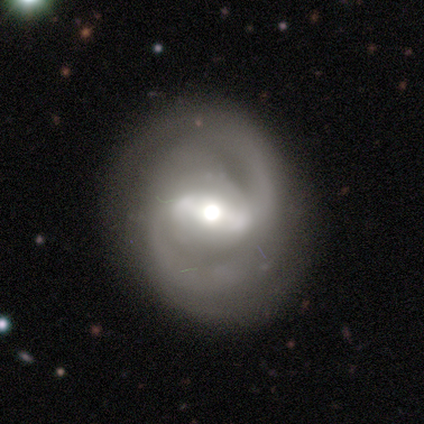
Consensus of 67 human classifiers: Volunteers were most divided on "spiral winding": medium: 50%, tight: 43%, loose: 7%. More confident: edge-on disk — no (100%); spiral arms — yes (92%); smooth or featured — featured or disk (91%); merging — none (83%); spiral arm count — 2 (82%); bar — strong (77%); bulge size — moderate (62%).